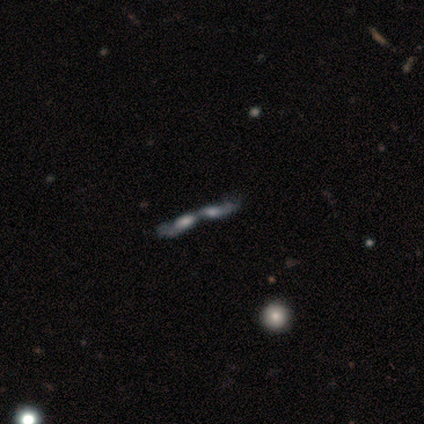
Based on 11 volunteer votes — smooth-or-featured: featured or disk: 55% | smooth: 27% | star or artifact: 18%
  disk-edge-on: no: 83% | yes: 17%
    bar: no: 100% | strong: 0% | weak: 0%
    has-spiral-arms: yes: 60% | no: 40%
      spiral-winding: loose: 67% | tight: 33% | medium: 0%
      spiral-arm-count: 1: 33% (tied) | 2: 33% (tied) | can't tell: 33% (tied) | 3: 0% | 4: 0% | more than 4: 0%
    bulge-size: moderate: 40% (tied) | none: 40% (tied) | small: 20% | dominant: 0% | large: 0%
  merging: merger: 89% | none: 11% | minor disturbance: 0% | major disturbance: 0%